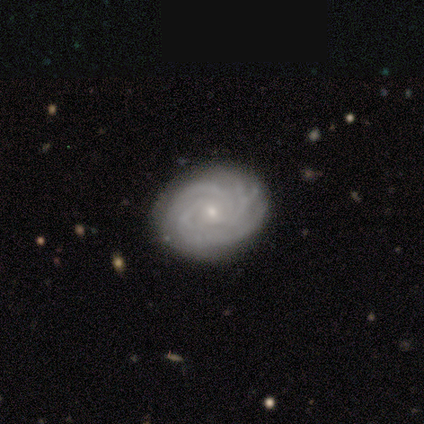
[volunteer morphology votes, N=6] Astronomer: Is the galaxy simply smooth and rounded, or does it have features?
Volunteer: featured or disk — 83%.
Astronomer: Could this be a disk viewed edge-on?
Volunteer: no — 100%.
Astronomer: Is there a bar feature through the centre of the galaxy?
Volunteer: no — 100%.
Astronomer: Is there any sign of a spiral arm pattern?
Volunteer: yes — 100%.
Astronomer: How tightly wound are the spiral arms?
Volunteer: tight — 80%.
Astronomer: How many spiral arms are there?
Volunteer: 3 — 60% (runner-up: 4, 40%).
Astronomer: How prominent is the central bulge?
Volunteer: small — 80%.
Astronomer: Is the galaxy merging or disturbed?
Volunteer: none — 83%.